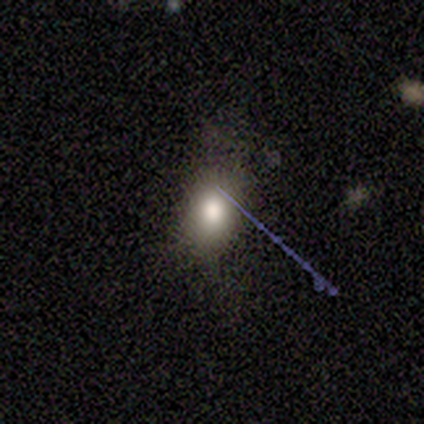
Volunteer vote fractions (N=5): Smooth or featured?
  - smooth: 80% *
  - star or artifact: 20%
  - featured or disk: 0%
How rounded?
  - in between: 100% *
  - round: 0%
  - cigar-shaped: 0%
Merging?
  - none: 75% *
  - major disturbance: 25%
  - minor disturbance: 0%
  - merger: 0%